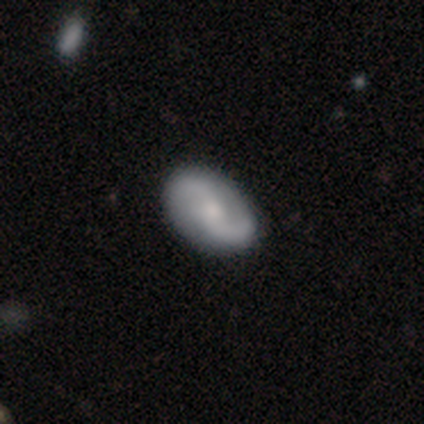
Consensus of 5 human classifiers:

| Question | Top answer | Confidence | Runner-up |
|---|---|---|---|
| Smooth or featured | smooth | 40% | tied: featured or disk (40%) |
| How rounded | in between | 100% | — |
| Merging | none | 100% | — |